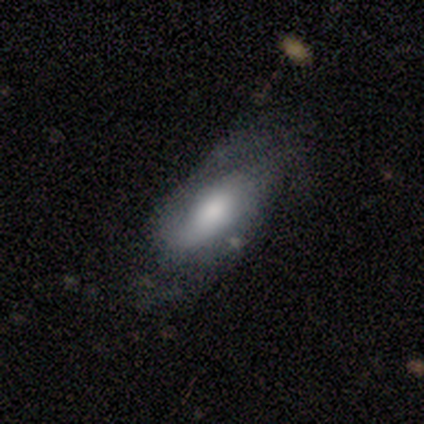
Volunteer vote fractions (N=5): smooth-or-featured: featured or disk: 60% | smooth: 40% | star or artifact: 0%
  disk-edge-on: no: 67% | yes: 33%
    bar: weak: 50% (tied) | no: 50% (tied) | strong: 0%
    has-spiral-arms: yes: 50% (tied) | no: 50% (tied)
      spiral-winding: medium: 100% | tight: 0% | loose: 0%
      spiral-arm-count: 1: 100% | 2: 0% | 3: 0% | 4: 0% | more than 4: 0% | can't tell: 0%
    bulge-size: large: 50% (tied) | moderate: 50% (tied) | dominant: 0% | small: 0% | none: 0%
  merging: minor disturbance: 60% | none: 20% | major disturbance: 20% | merger: 0%